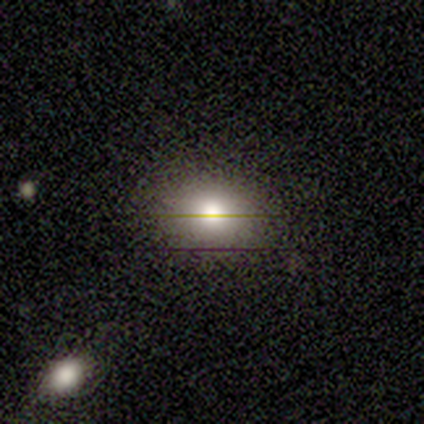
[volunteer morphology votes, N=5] Smooth or featured? 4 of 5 (80%) said smooth. How rounded? 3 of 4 (75%) said round. Merging? 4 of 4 (100%) said none.